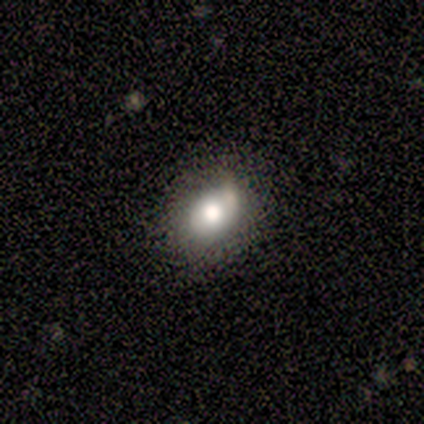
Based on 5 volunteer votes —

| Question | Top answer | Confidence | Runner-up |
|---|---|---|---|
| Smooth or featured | smooth | 80% | featured or disk (20%) |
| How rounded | in between | 75% | round (25%) |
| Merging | none | 40% | tied: minor disturbance (40%) |